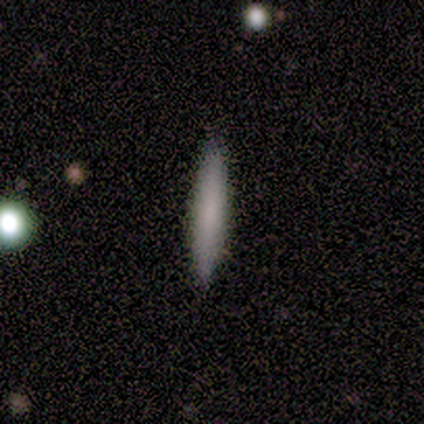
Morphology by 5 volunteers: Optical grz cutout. It shows a smooth galaxy with no disk features (60%) that is cigar-shaped (100%). Merging: none (80%).